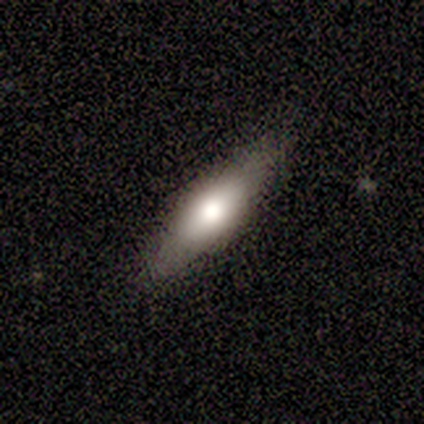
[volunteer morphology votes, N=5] A featured or disk galaxy (100%) viewed edge-on (100%) with a rounded central bulge (80%).

Vote fractions:
- Smooth or featured? featured or disk: 100% / smooth: 0% / star or artifact: 0%
- Edge-on disk? yes: 100% / no: 0%
- Edge-on bulge? rounded: 80% / boxy: 20% / none: 0%
- Merging? none: 100% / minor disturbance: 0% / major disturbance: 0% / merger: 0%